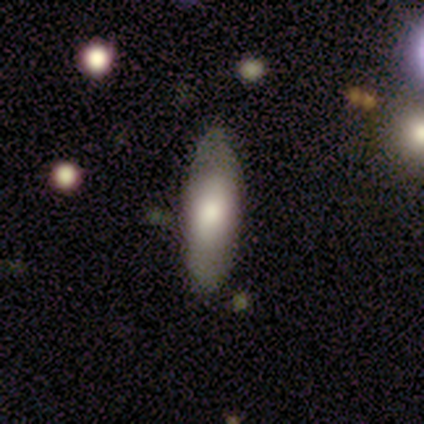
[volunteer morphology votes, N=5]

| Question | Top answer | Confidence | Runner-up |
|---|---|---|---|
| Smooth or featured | smooth | 100% | — |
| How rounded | in between | 80% | cigar-shaped (20%) |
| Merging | none | 80% | minor disturbance (20%) |